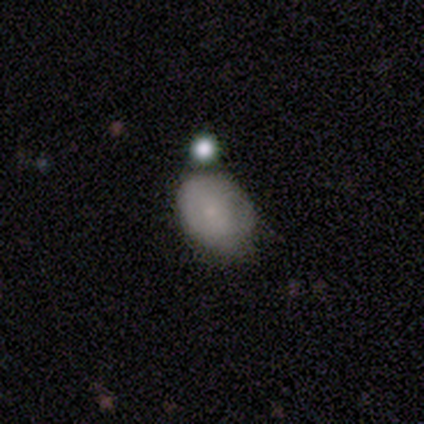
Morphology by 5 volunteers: type=smooth (100%); roundness=in between (60%); merging=merger (60%).